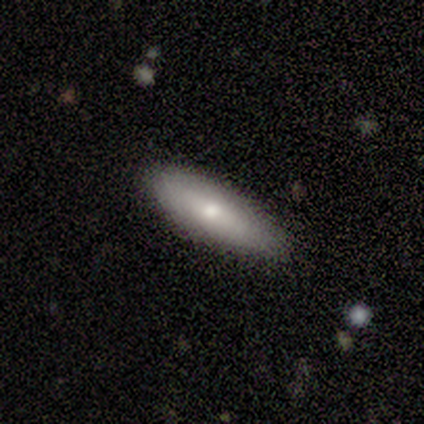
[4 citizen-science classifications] smooth_or_featured: smooth (p=1.00)
how_rounded: in between (p=0.50) [tied with: cigar-shaped p=0.50]
merging: none (p=0.75) [alt: minor disturbance p=0.25]